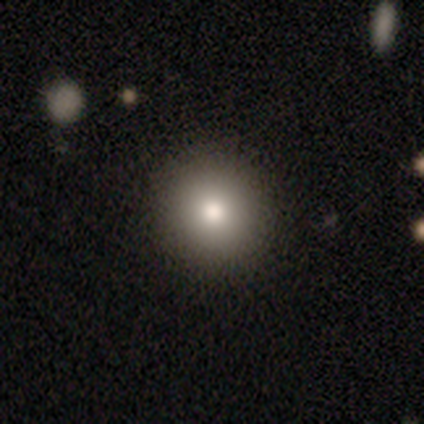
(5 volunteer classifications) Volunteers were most divided on "merging": none: 80%, minor disturbance: 20%, major disturbance: 0%, merger: 0%. More confident: smooth or featured — smooth (100%); how rounded — round (100%).